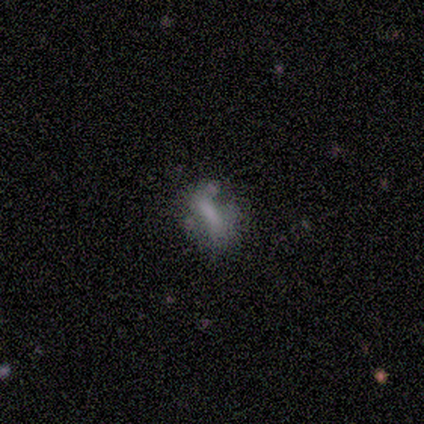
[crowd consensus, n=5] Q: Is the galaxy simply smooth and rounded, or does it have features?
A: smooth — 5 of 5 (100%).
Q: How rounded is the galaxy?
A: in between — 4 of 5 (80%).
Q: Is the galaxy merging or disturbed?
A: none — 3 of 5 (60%).